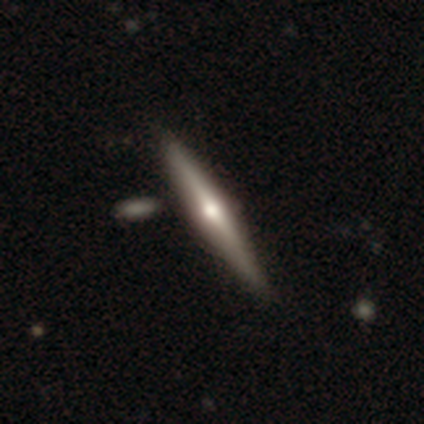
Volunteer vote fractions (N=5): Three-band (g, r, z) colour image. It shows a featured or disk galaxy (60%) viewed edge-on (100%) with a rounded central bulge (100%). Merging: none (100%).